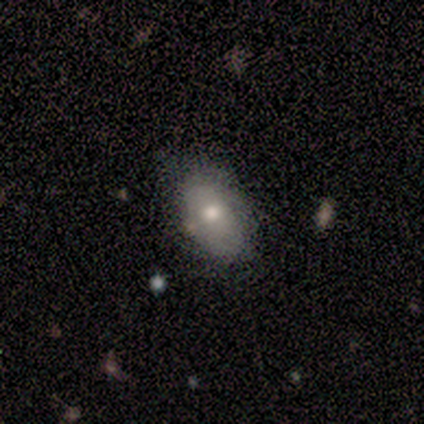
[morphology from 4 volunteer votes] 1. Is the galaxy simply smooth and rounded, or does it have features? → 100% smooth, 0% featured or disk, 0% star or artifact.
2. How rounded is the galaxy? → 75% in between, 25% cigar-shaped, 0% round.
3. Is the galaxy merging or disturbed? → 75% none, 25% minor disturbance, 0% major disturbance, 0% merger.